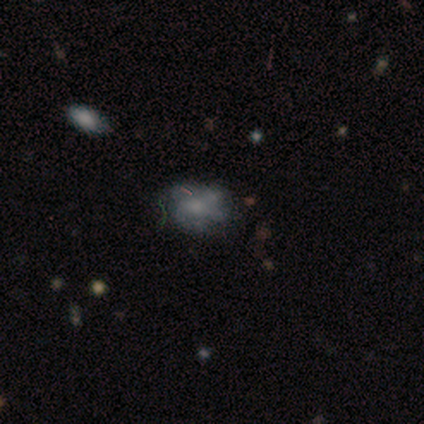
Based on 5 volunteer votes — smooth_or_featured: smooth (p=0.60) [alt: featured or disk p=0.20]
how_rounded: in between (p=0.67) [alt: round p=0.33]
merging: none (p=0.50) [tied with: minor disturbance p=0.50]